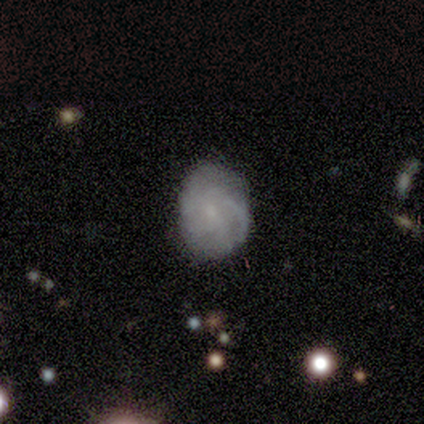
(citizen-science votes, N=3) Morphology: type=smooth (67%); roundness=in between (100%); merging=none (67%).